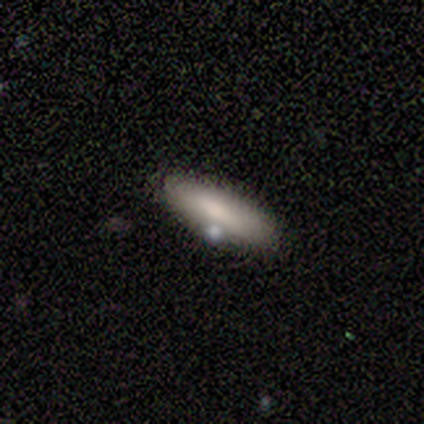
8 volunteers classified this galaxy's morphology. Smooth or featured?
  - smooth: 62% *
  - featured or disk: 25%
  - star or artifact: 12%
How rounded?
  - in between: 60% *
  - cigar-shaped: 40%
  - round: 0%
Merging?
  - none: 86% *
  - minor disturbance: 14%
  - major disturbance: 0%
  - merger: 0%